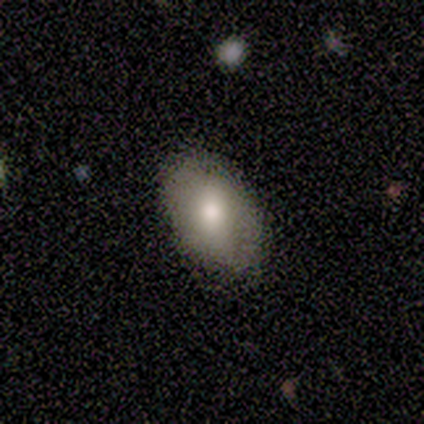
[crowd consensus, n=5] Volunteers were most divided on "merging": none: 50%, minor disturbance: 25%, merger: 25%, major disturbance: 0%. More confident: how rounded — in between (100%); smooth or featured — smooth (60%).